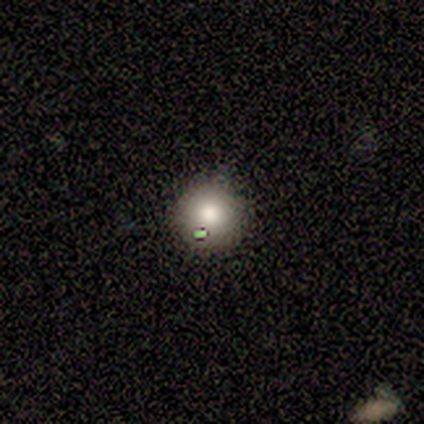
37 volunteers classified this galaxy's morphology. smooth-or-featured: smooth: 78% | featured or disk: 16% | star or artifact: 5%
  how-rounded: round: 97% | in between: 3% | cigar-shaped: 0%
  merging: none: 89% | minor disturbance: 9% | major disturbance: 3% | merger: 0%